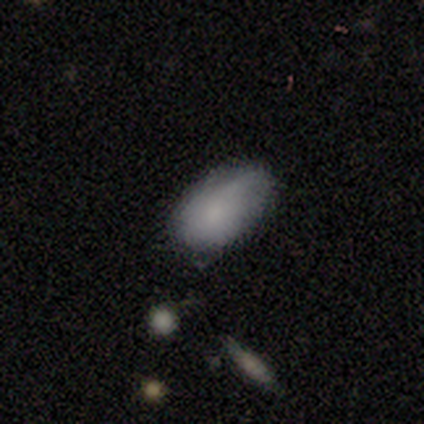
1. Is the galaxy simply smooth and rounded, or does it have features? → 50% smooth (tied), 50% featured or disk (tied), 0% star or artifact.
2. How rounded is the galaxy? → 100% in between, 0% round, 0% cigar-shaped.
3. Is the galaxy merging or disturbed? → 50% none, 25% minor disturbance, 25% merger, 0% major disturbance.